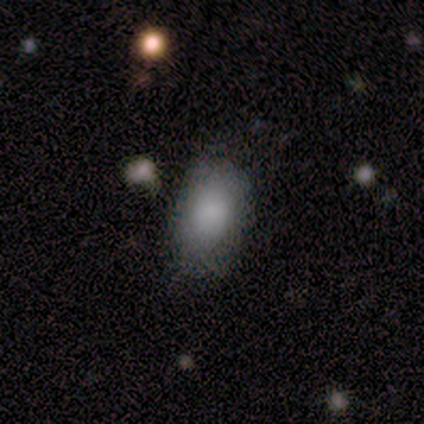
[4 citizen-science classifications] smooth 50% (tied), featured or disk 50% (tied), star or artifact 0%. Down the decision tree: how rounded — round (50%, tied with in between); merging — none (75%).